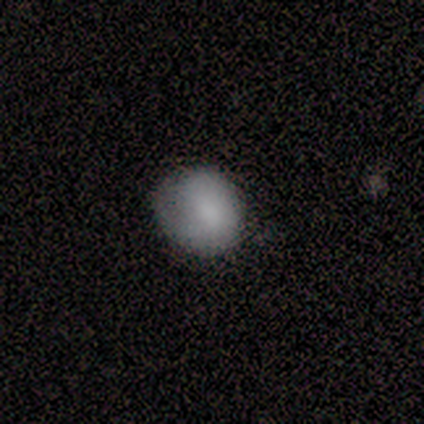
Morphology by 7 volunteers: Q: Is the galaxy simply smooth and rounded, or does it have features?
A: smooth — 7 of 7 (100%).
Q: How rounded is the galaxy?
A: round — 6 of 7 (86%).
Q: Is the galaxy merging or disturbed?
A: none — 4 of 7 (57%).